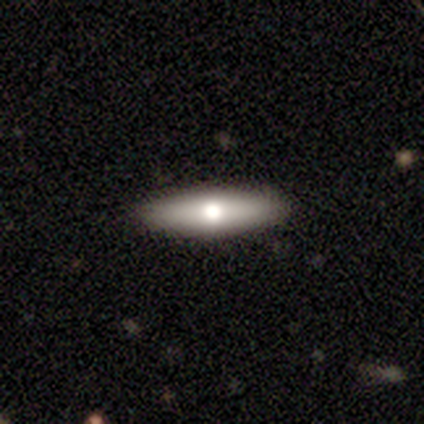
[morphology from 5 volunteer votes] smooth_or_featured: smooth (p=1.00)
how_rounded: cigar-shaped (p=1.00)
merging: none (p=1.00)